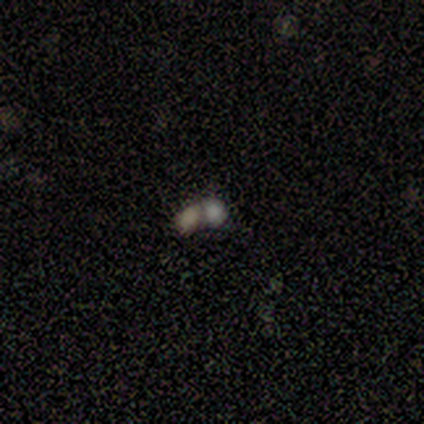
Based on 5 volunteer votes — Smooth or featured? 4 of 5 (80%) said smooth. How rounded? 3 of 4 (75%) said in between. Merging? 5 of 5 (100%) said merger.